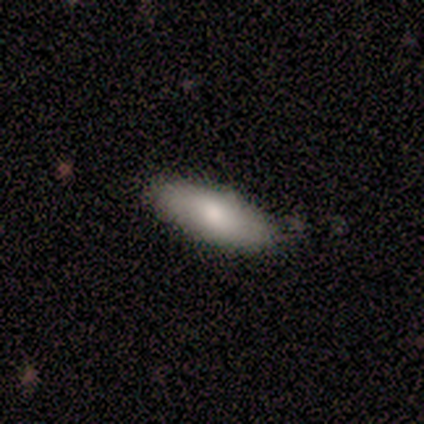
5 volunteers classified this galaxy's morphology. Smooth or featured? smooth (100%)
How rounded? in between (80%)
Merging? none (100%)